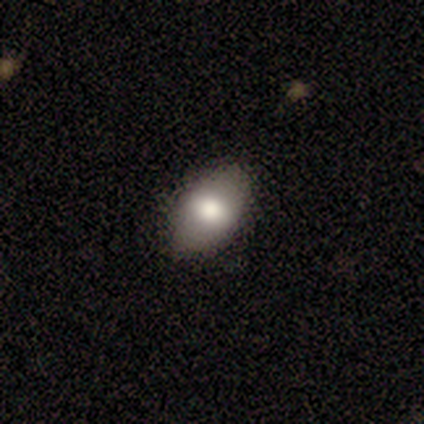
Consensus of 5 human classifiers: Overall: smooth (100%). How rounded: in between (100%). Merging: none (60%; minor disturbance 40%).